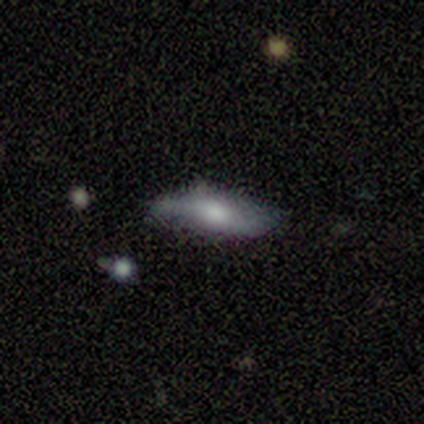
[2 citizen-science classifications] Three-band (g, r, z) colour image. It shows a smooth galaxy with no disk features (100%) that is in between round and cigar-shaped (100%). Merging: none (100%).